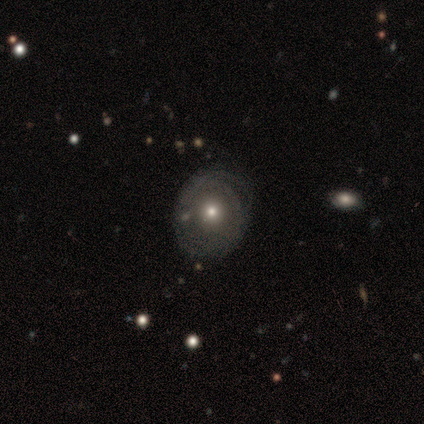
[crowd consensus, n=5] smooth-or-featured: featured or disk: 60% | smooth: 40% | star or artifact: 0%
  disk-edge-on: no: 100% | yes: 0%
    bar: no: 67% | strong: 33% | weak: 0%
    has-spiral-arms: no: 67% | yes: 33%
    bulge-size: moderate: 67% | small: 33% | dominant: 0% | large: 0% | none: 0%
  merging: none: 60% | minor disturbance: 40% | major disturbance: 0% | merger: 0%